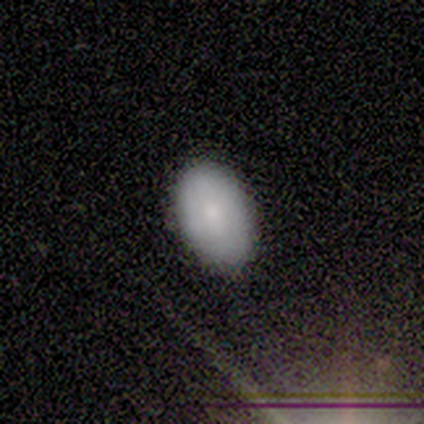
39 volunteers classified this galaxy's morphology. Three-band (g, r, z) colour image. It shows a smooth galaxy with no disk features (62%) that is in between round and cigar-shaped (96%). Merging: none (94%).